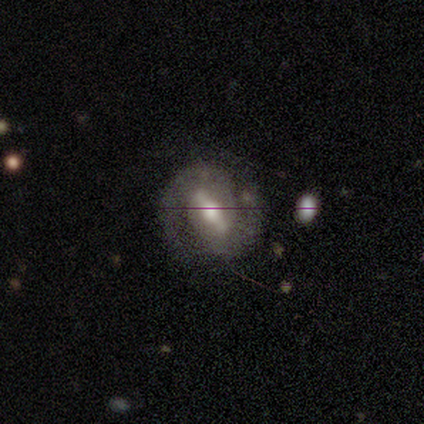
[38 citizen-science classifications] Smooth or featured? featured or disk (79%)
Edge-on disk? no (97%)
Bar? strong (66%)
Spiral arms? yes (97%)
Spiral winding? medium (50%)
Spiral arm count? 2 (96%)
Bulge size? moderate (72%)
Merging? none (87%)